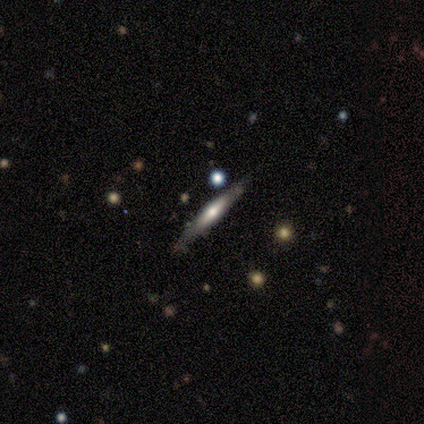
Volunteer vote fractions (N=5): featured or disk 60%, smooth 40%, star or artifact 0%. Down the decision tree: edge-on disk — yes (100%); edge-on bulge — rounded (67%); merging — none (60%).